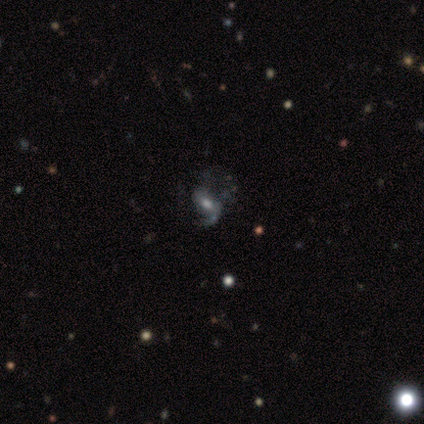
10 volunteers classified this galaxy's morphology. Smooth or featured? featured or disk (80%)
Edge-on disk? no (100%)
Bar? no (75%)
Spiral arms? yes (75%)
Spiral winding? loose (50%)
Spiral arm count? 1 (83%)
Bulge size? moderate (38%)
Merging? none (50%)